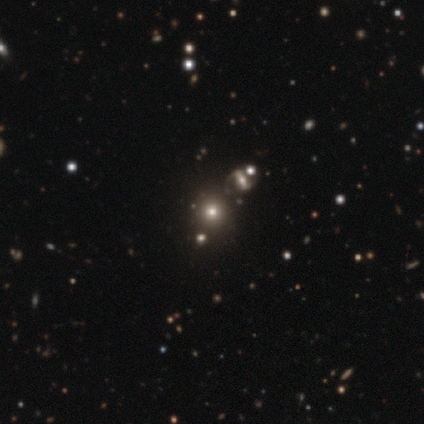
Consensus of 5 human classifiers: Smooth or featured? 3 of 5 (60%) said smooth. How rounded? 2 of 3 (67%) said round. Merging? 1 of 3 (33%, tied with minor disturbance and major disturbance) said none.